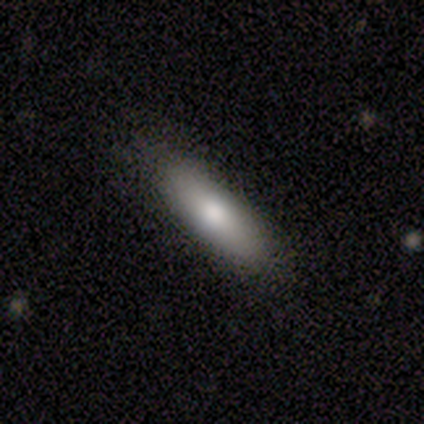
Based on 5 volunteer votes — Morphology: type=smooth (80%); roundness=in between (50%, tied with cigar-shaped); merging=none (80%).